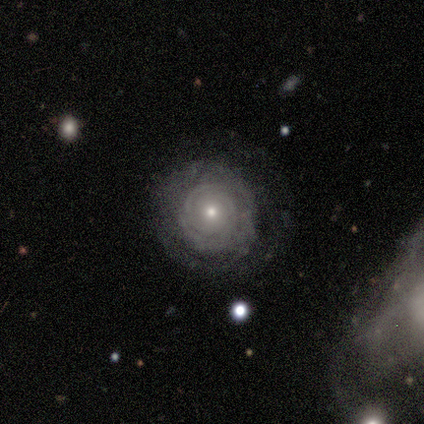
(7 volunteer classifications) A featured or disk galaxy (86%) with no bar (100%), tight (100%) spiral arms (67%) and a small central bulge (67%).

Vote fractions:
- Smooth or featured? featured or disk: 86% / smooth: 14% / star or artifact: 0%
- Edge-on disk? no: 100% / yes: 0%
- Bar? no: 100% / strong: 0% / weak: 0%
- Spiral arms? yes: 67% / no: 33%
- Spiral winding? tight: 100% / medium: 0% / loose: 0%
- Spiral arm count? can't tell: 75% / 2: 25% / 1: 0% / 3: 0% / 4: 0% / more than 4: 0%
- Bulge size? small: 67% / moderate: 33% / dominant: 0% / large: 0% / none: 0%
- Merging? none: 71% / minor disturbance: 29% / major disturbance: 0% / merger: 0%